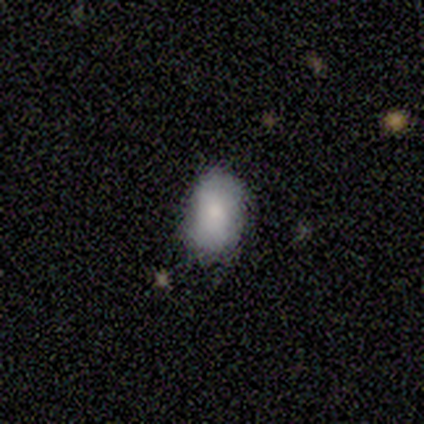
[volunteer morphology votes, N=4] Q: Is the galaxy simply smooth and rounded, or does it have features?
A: smooth — 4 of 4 (100%).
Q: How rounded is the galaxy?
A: in between — 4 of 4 (100%).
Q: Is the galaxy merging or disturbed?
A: none — 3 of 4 (75%).